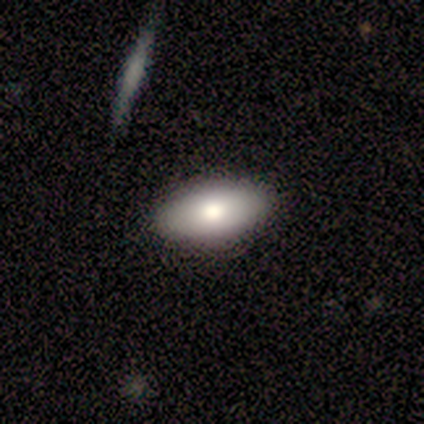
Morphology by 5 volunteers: Volunteers were most divided on "how rounded": in between: 80%, cigar-shaped: 20%, round: 0%. More confident: smooth or featured — smooth (100%); merging — none (80%).